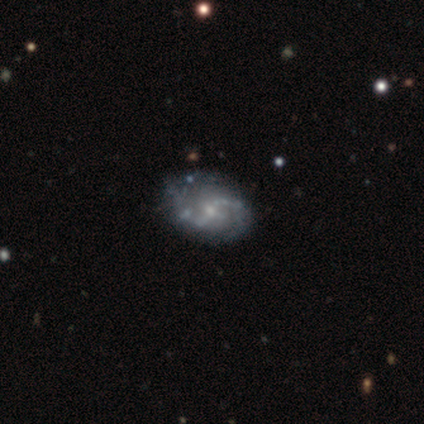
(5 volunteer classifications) smooth_or_featured: featured or disk (p=1.00)
disk_edge_on: no (p=1.00)
bar: weak (p=0.60) [alt: no p=0.40]
has_spiral_arms: yes (p=1.00)
spiral_winding: tight (p=0.40) [tied with: medium p=0.40]
spiral_arm_count: 2 (p=1.00)
bulge_size: moderate (p=0.60) [alt: dominant p=0.20]
merging: none (p=1.00)